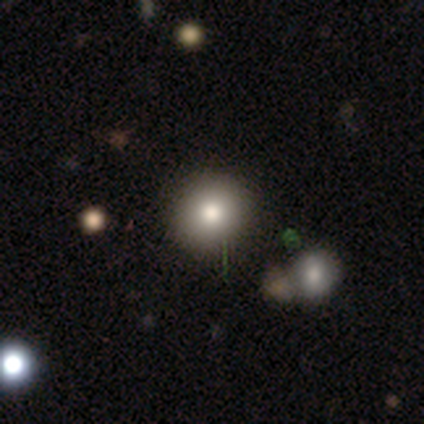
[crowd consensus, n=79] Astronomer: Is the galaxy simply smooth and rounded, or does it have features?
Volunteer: smooth — 78%.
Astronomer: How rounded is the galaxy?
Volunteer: round — 84%.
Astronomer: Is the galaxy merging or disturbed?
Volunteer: none — 45%.